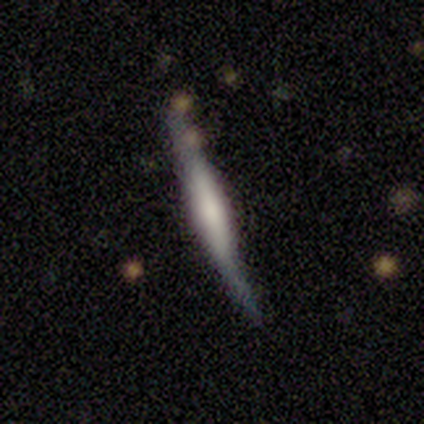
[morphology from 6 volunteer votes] Volunteers were most divided on "smooth or featured": featured or disk: 67%, smooth: 33%, star or artifact: 0%. More confident: edge-on disk — yes (100%); merging — none (83%); edge-on bulge — rounded (75%).